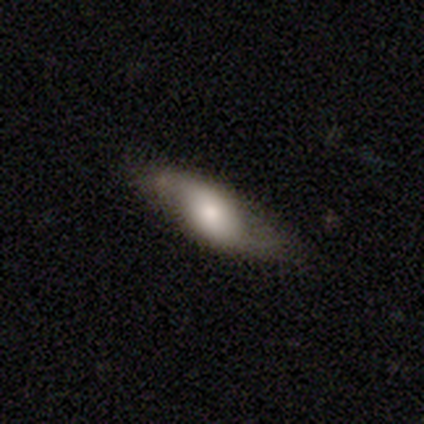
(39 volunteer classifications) Morphology: type=featured or disk (56%); edge-on=no (64%); bar=no (50%); spiral arms=yes (93%); winding=loose (85%); arm count=2 (85%); bulge=moderate (57%); merging=none (70%).